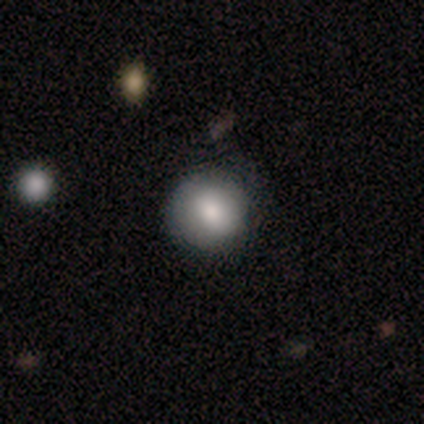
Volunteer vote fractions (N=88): This appears to be a smooth galaxy with no disk features (73%) that is round (98%). Merging: none (84%).